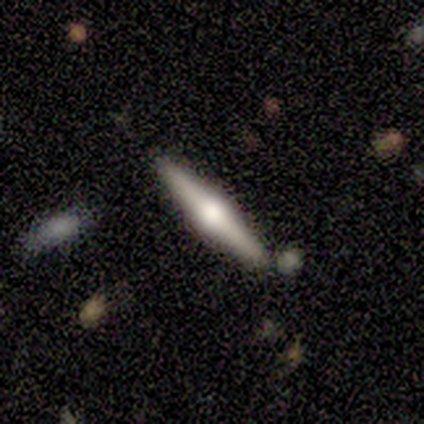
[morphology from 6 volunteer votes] Smooth or featured? 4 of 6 (67%) said featured or disk. Edge-on disk? 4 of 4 (100%) said yes. Edge-on bulge? 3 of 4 (75%) said rounded. Merging? 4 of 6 (67%) said none.